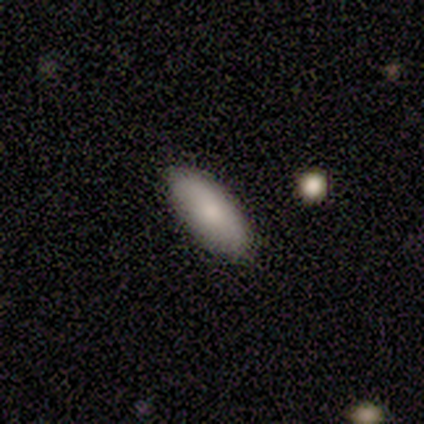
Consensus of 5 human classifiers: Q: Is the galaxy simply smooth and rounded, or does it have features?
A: smooth — 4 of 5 (80%).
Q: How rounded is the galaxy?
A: in between — 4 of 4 (100%).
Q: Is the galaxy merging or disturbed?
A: none — 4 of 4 (100%).